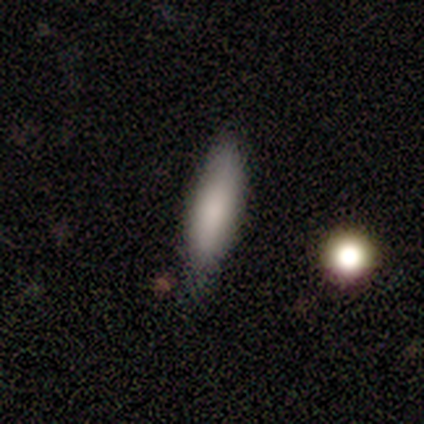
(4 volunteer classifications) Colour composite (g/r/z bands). It shows a smooth galaxy with no disk features (75%) that is cigar-shaped (67%). Merging: none (67%).